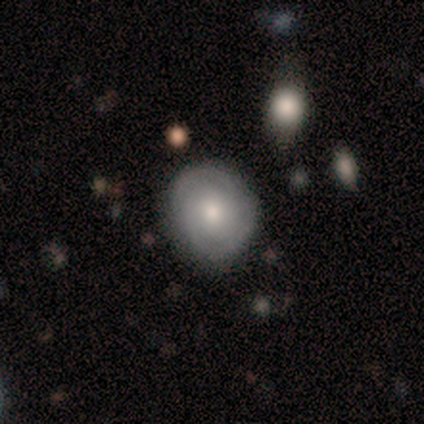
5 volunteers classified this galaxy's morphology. Overall: featured or disk (80%). Edge-on disk: no (100%). Bar: no (100%). Spiral arms: yes (75%). Spiral arm count: 2 (67%; can't tell 33%). Spiral winding: tight (100%). Bulge size: moderate (50%; large 25%). Merging: none (80%).